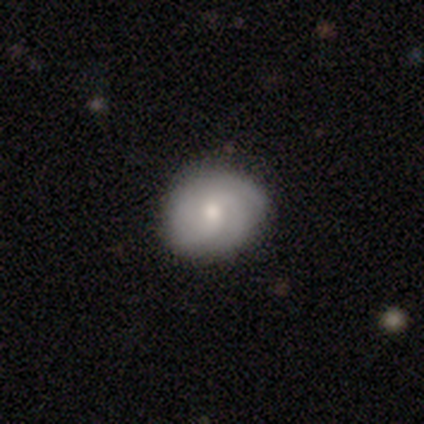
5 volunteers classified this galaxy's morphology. Smooth or featured? featured or disk (60%)
Edge-on disk? no (100%)
Bar? no (67%)
Spiral arms? yes (100%)
Spiral winding? tight (67%)
Spiral arm count? 2 (33%, tied with 3 and 4)
Bulge size? small (67%)
Merging? none (60%)